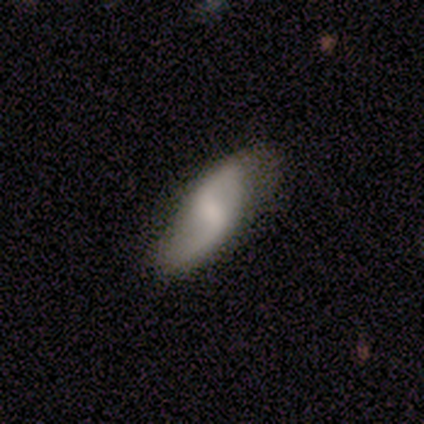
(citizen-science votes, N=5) Volunteers were most divided on "smooth or featured": featured or disk: 60%, smooth: 40%, star or artifact: 0%. More confident: edge-on disk — no (100%); spiral arms — yes (100%); spiral arm count — 2 (100%); bar — weak (67%); spiral winding — loose (67%); bulge size — small (67%); merging — none (60%).